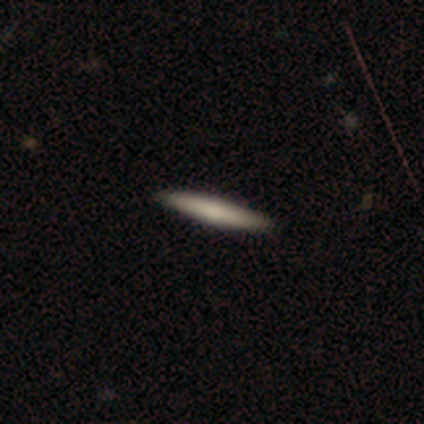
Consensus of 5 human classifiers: A smooth galaxy with no disk features (60%) that is cigar-shaped (100%). Merging: none (50%, tied with minor disturbance).